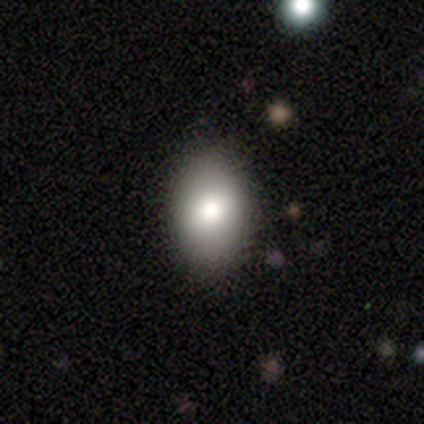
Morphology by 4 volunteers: A smooth galaxy with no disk features (75%) that is in between round and cigar-shaped (67%). Merging: none (100%).